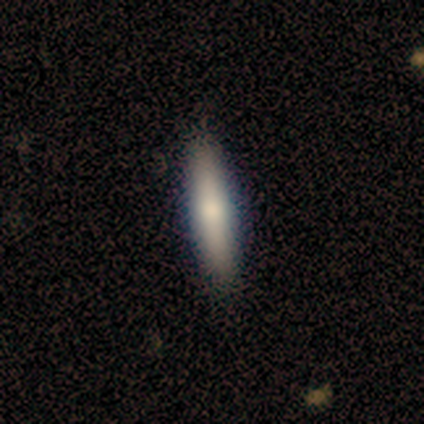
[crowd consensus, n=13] Smooth or featured? smooth (69%)
How rounded? cigar-shaped (78%)
Merging? none (92%)